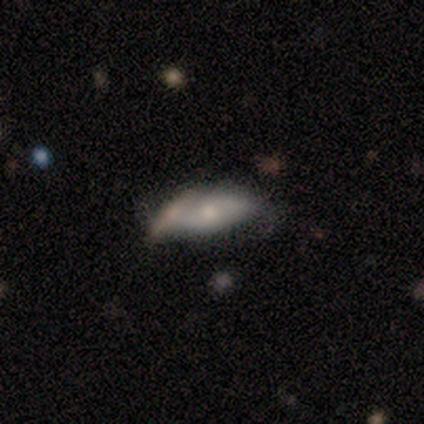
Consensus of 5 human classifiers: Smooth or featured? smooth (80%)
How rounded? in between (50%, tied with cigar-shaped)
Merging? none (60%)